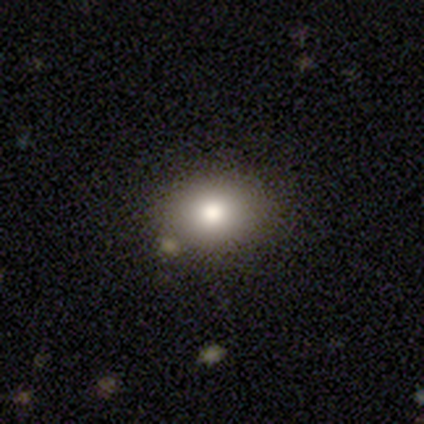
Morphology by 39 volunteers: Volunteers were most divided on "how rounded": in between: 59%, round: 41%, cigar-shaped: 0%. More confident: smooth or featured — smooth (82%); merging — none (79%).